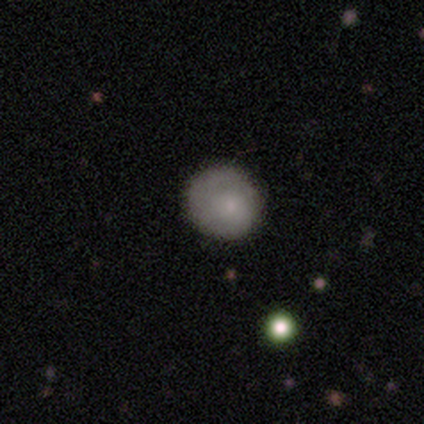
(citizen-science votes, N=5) smooth-or-featured: smooth: 80% | featured or disk: 20% | star or artifact: 0%
  how-rounded: round: 100% | in between: 0% | cigar-shaped: 0%
  merging: none: 100% | minor disturbance: 0% | major disturbance: 0% | merger: 0%